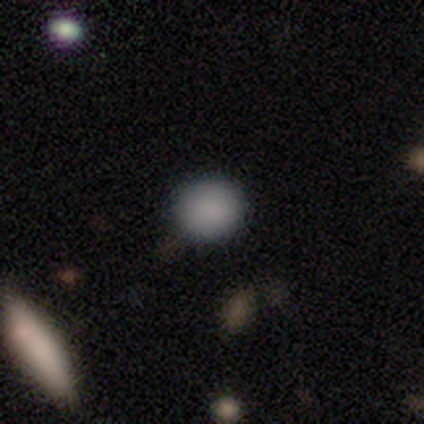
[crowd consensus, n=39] A smooth galaxy with no disk features (85%) that is round (94%). Merging: none (91%).